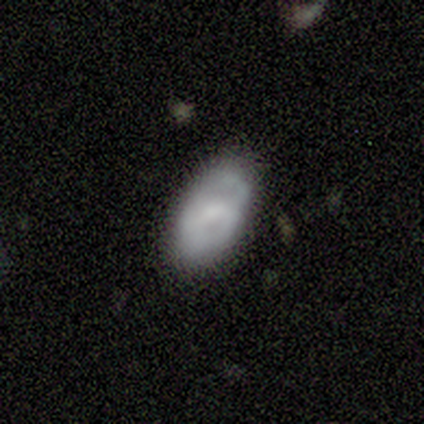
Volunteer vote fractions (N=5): Overall: smooth (80%). How rounded: in between (100%). Merging: none (60%; minor disturbance 20%).